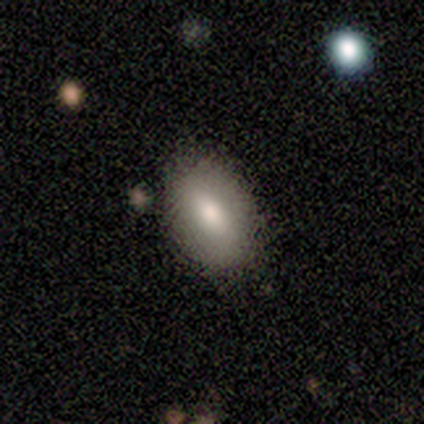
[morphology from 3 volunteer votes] Overall: smooth (100%). How rounded: in between (100%). Merging: none (100%).